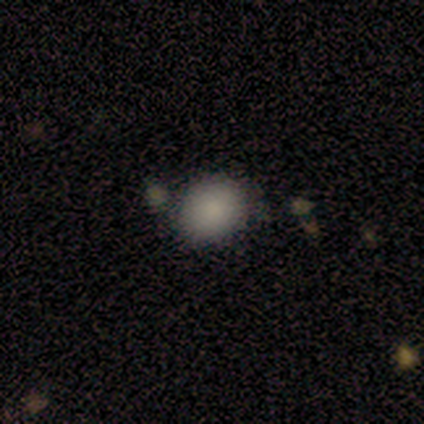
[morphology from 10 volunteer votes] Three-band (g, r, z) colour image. It shows a smooth galaxy with no disk features (100%) that is round (80%). Merging: none (50%).